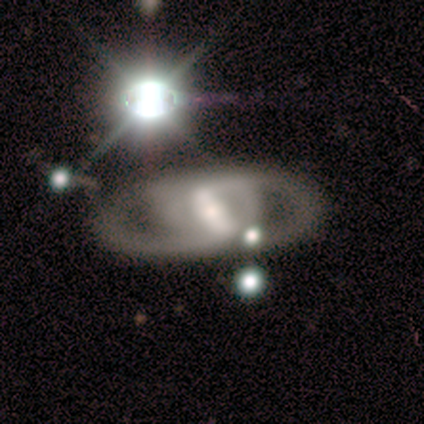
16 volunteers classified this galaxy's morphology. featured or disk 56%, star or artifact 31%, smooth 12%. Down the decision tree: edge-on disk — no (78%); bar — strong (71%); spiral arms — yes (86%); spiral arm count — 2 (83%); spiral winding — medium (67%); bulge size — small (43%); merging — none (36%, tied with minor disturbance).